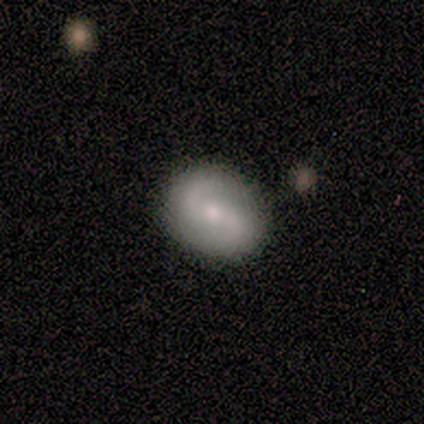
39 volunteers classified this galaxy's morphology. This is likely a featured or disk galaxy (69%). It is clearly not viewed edge-on (96%). Bar: possibly weak (54%). Spiral arm pattern: clearly yes (92%). Spiral arm count: clearly 2 (83%). Spiral winding: marginally loose (42%). Central bulge: possibly moderate (50%). Merging: clearly none (82%).